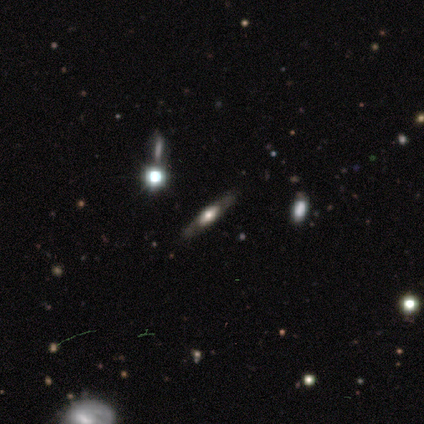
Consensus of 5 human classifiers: Smooth or featured? 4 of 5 (80%) said featured or disk. Edge-on disk? 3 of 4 (75%) said yes. Edge-on bulge? 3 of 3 (100%) said rounded. Merging? 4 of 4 (100%) said none.